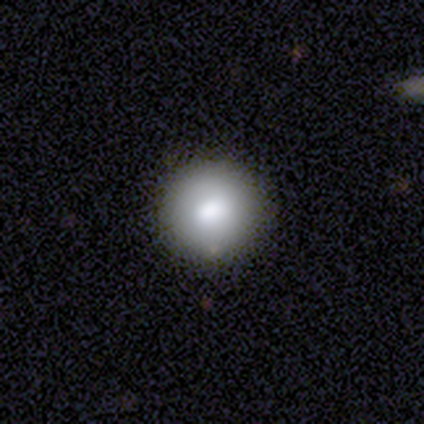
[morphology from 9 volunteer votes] A smooth galaxy with no disk features (78%) that is round (100%). Merging: none (75%).